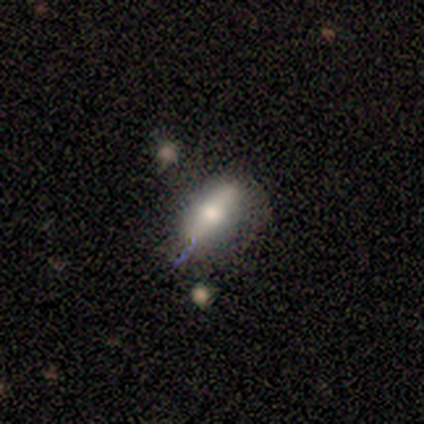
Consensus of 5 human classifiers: Overall: featured or disk (80%). Edge-on disk: yes (50%, tied with no). Edge-on bulge: rounded (100%). Merging: minor disturbance (60%; none 40%).